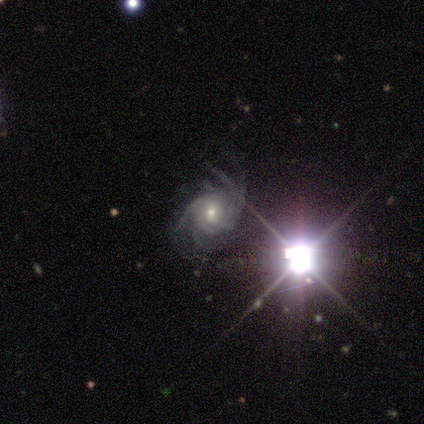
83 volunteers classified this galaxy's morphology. smooth-or-featured: featured or disk: 83% | star or artifact: 17% | smooth: 0%
  disk-edge-on: no: 99% | yes: 1%
    bar: no: 54% | weak: 38% | strong: 7%
    has-spiral-arms: yes: 99% | no: 1%
      spiral-winding: tight: 48% | medium: 40% | loose: 12%
      spiral-arm-count: more than 4: 34% | 4: 24% | can't tell: 24% | 3: 10% | 2: 7% | 1: 0%
    bulge-size: small: 50% | moderate: 44% | large: 6% | dominant: 0% | none: 0%
  merging: none: 57% | minor disturbance: 26% | major disturbance: 16% | merger: 1%